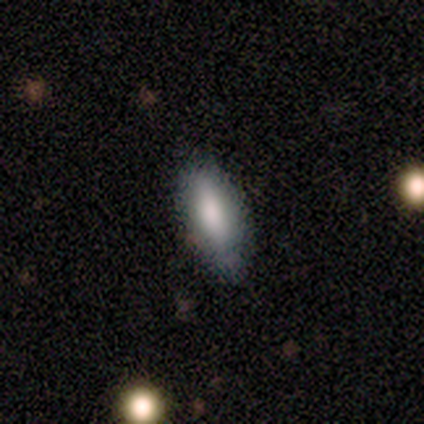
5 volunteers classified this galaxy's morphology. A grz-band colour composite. It shows a smooth galaxy with no disk features (80%) that is in between round and cigar-shaped (100%). Merging: none (100%).